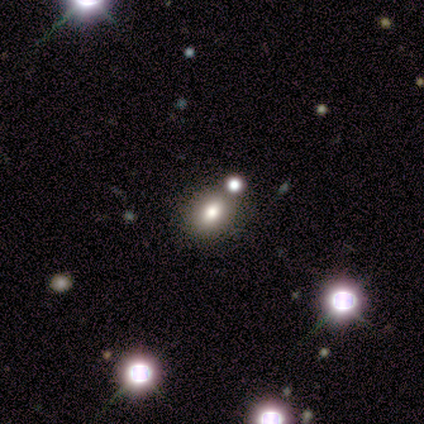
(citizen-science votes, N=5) Smooth or featured?
  - smooth: 80% *
  - featured or disk: 20%
  - star or artifact: 0%
How rounded?
  - round: 50% * (tied)
  - in between: 50% * (tied)
  - cigar-shaped: 0%
Merging?
  - none: 100% *
  - minor disturbance: 0%
  - major disturbance: 0%
  - merger: 0%